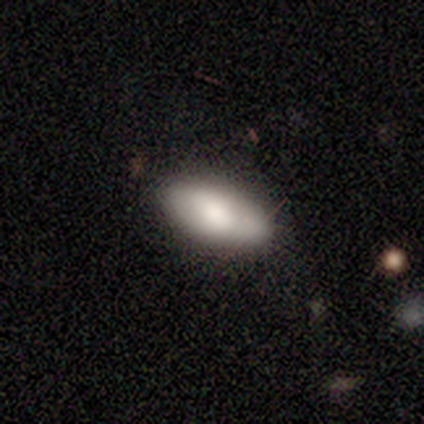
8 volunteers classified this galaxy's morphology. smooth 75%, featured or disk 25%, star or artifact 0%. Down the decision tree: how rounded — in between (100%); merging — none (100%).